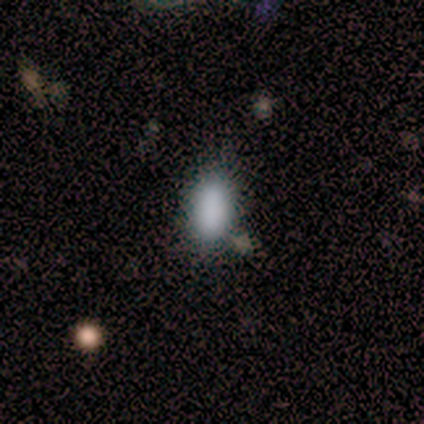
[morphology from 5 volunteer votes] smooth_or_featured: smooth (p=1.00)
how_rounded: in between (p=1.00)
merging: none (p=1.00)